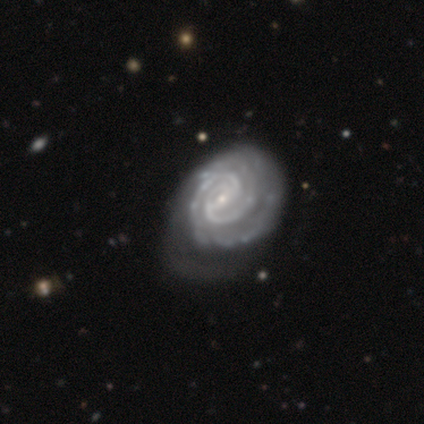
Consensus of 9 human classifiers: featured or disk 78%, star or artifact 22%, smooth 0%. Down the decision tree: edge-on disk — no (100%); bar — weak (43%); spiral arms — yes (100%); spiral arm count — 2 (57%); spiral winding — tight (100%); bulge size — small (57%); merging — none (86%).